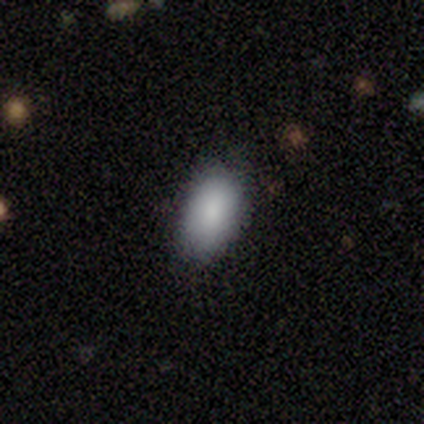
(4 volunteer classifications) This appears to be a smooth galaxy with no disk features (100%) that is in between round and cigar-shaped (100%). Merging: none (100%).